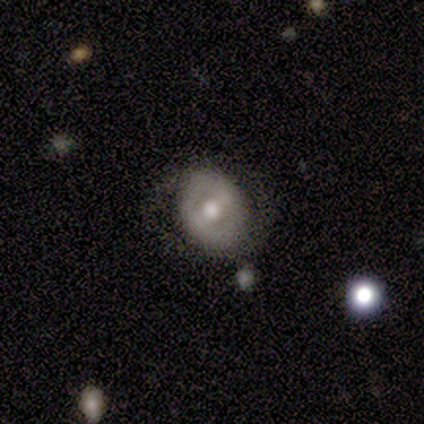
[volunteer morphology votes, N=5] featured or disk 60%, smooth 20%, star or artifact 20%. Down the decision tree: edge-on disk — no (100%); bar — no (67%); spiral arms — no (67%); bulge size — moderate (100%); merging — none (100%).